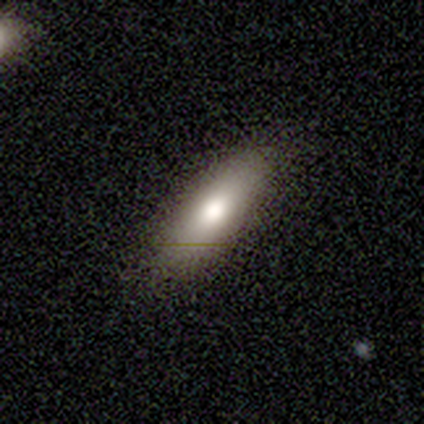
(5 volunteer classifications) Overall: smooth (80%). How rounded: cigar-shaped (100%). Merging: none (100%).